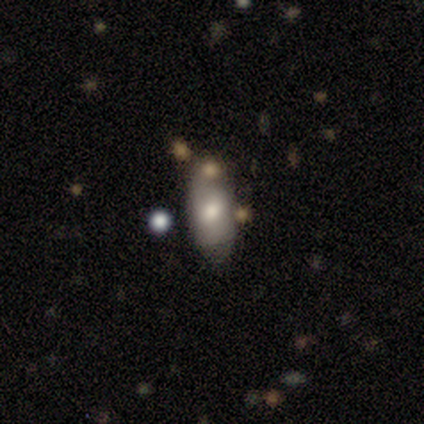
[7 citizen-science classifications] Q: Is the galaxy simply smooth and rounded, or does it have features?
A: smooth — 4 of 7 (57%).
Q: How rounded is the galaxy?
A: in between — 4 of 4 (100%).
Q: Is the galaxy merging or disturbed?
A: none — 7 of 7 (100%).